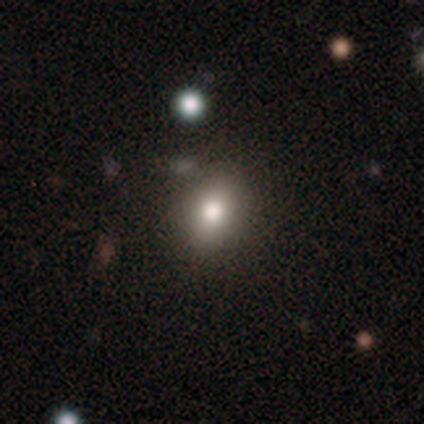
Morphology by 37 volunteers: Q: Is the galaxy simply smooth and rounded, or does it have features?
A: smooth — 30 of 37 (81%).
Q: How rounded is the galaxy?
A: round — 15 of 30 (50%, tied with in between).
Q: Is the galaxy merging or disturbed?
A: none — 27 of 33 (82%).